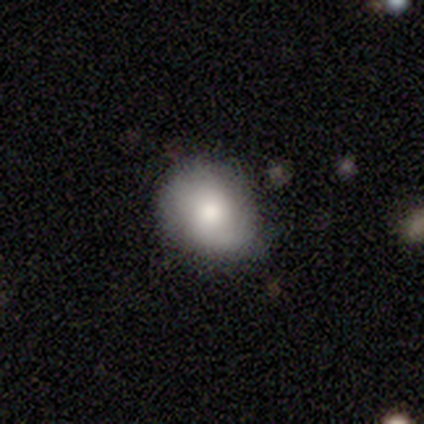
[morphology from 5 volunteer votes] smooth-or-featured: smooth: 80% | featured or disk: 20% | star or artifact: 0%
  how-rounded: round: 50% (tied) | in between: 50% (tied) | cigar-shaped: 0%
  merging: none: 60% | minor disturbance: 40% | major disturbance: 0% | merger: 0%